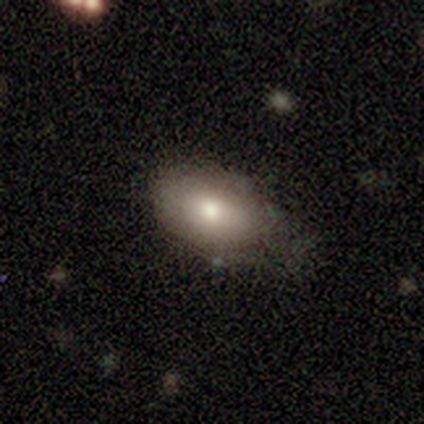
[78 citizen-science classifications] Smooth or featured: smooth — 85% (featured or disk — 13%)
How rounded: in between — 94% (round — 6%)
Merging: none — 25% (minor disturbance — 18%)